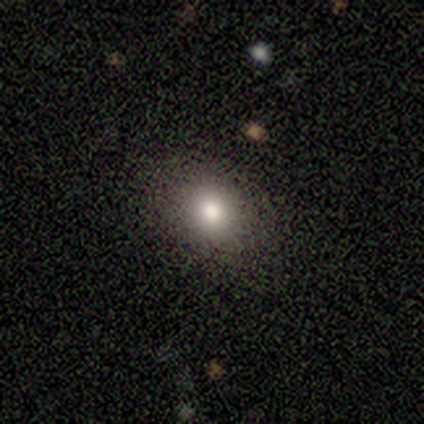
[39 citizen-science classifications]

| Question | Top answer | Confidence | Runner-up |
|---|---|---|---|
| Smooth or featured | smooth | 74% | featured or disk (15%) |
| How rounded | in between | 52% | round (45%) |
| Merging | none | 86% | minor disturbance (9%) |